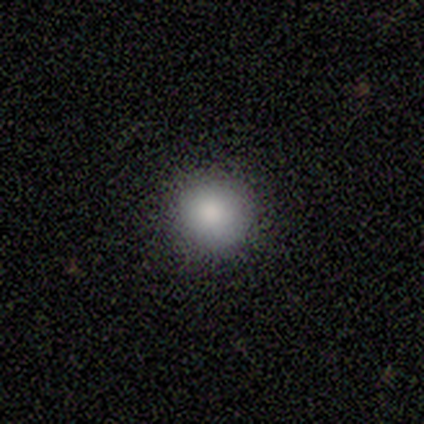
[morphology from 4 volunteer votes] smooth_or_featured: smooth (p=1.00)
how_rounded: round (p=1.00)
merging: none (p=0.50) [tied with: minor disturbance p=0.50]